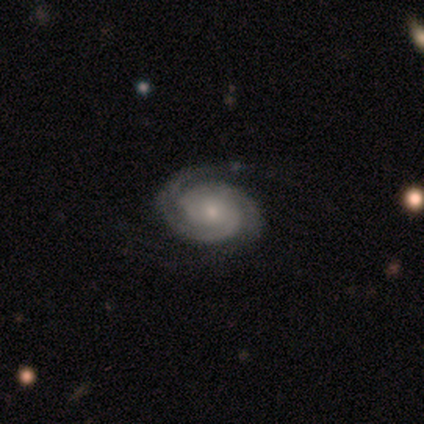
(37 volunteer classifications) A featured or disk galaxy (84%) with no bar (70%), 2 (77%) tight (83%) spiral arms (100%) and a small central bulge (57%). Merging: none (59%).